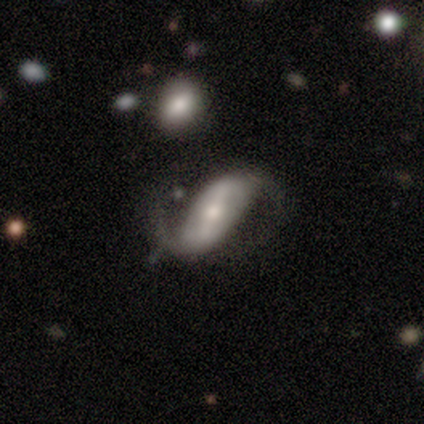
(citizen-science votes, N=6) This appears to be a featured or disk galaxy (100%) with a strong bar (50%, tied with weak), 2 (60%) loose (60%) spiral arms (83%) and a moderate central bulge (50%). Merging: none (50%).